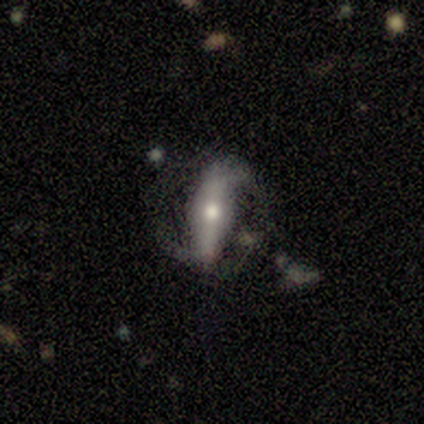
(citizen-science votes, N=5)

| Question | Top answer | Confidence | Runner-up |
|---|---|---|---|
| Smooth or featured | featured or disk | 100% | — |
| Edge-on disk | no | 80% | yes (20%) |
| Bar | strong | 75% | weak (25%) |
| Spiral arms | yes | 100% | — |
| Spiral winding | medium | 50% | tight (25%) |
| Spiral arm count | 2 | 75% | can't tell (25%) |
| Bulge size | large | 50% | moderate (25%) |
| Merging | none | 60% | minor disturbance (20%) |